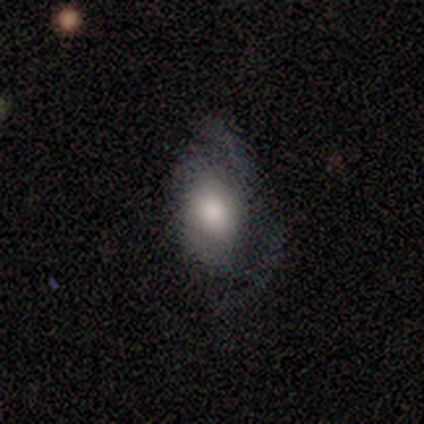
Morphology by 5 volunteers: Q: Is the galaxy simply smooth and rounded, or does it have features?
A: smooth — 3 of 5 (60%).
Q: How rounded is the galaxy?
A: in between — 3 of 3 (100%).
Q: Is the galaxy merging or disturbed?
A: major disturbance — 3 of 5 (60%).